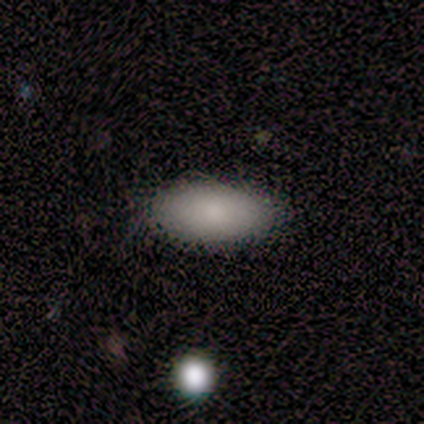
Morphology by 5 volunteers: This is clearly a smooth galaxy (80%). How rounded: clearly in between (100%). Merging: clearly none (100%).